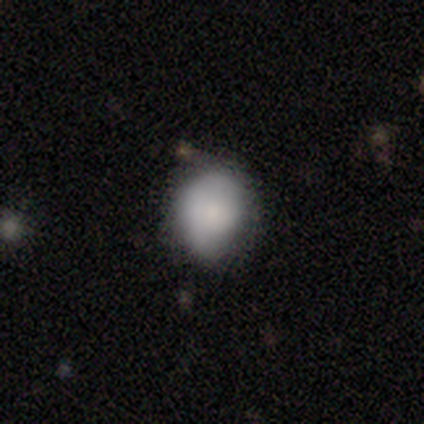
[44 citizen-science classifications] This appears to be a smooth galaxy with no disk features (75%) that is round (67%). Merging: none (54%).